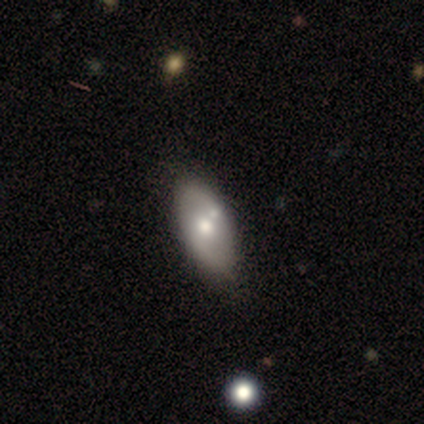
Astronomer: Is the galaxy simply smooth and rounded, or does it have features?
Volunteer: featured or disk — 60% (runner-up: smooth, 40%).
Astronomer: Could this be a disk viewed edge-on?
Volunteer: no — 100%.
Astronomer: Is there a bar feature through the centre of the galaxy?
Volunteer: no — 100%.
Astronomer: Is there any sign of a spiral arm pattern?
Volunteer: no — 100%.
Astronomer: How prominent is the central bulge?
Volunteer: moderate — 100%.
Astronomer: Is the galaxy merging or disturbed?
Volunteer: none — 80%.